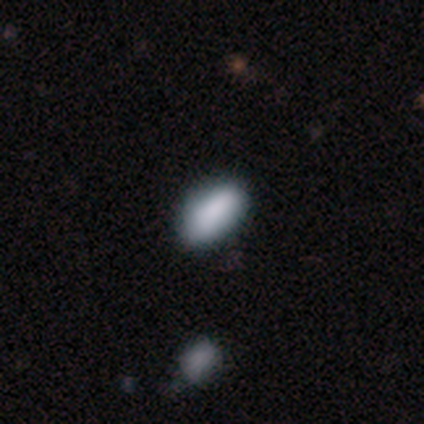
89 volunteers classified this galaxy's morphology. Smooth or featured? 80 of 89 (90%) said smooth. How rounded? 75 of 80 (94%) said in between. Merging? 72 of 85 (85%) said none.